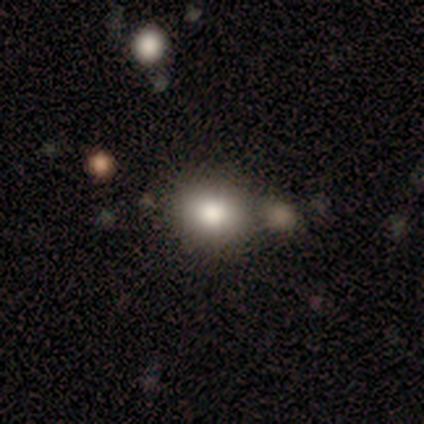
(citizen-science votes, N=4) This is likely a smooth galaxy (75%). How rounded: likely in between (67%). Merging: likely none (75%).